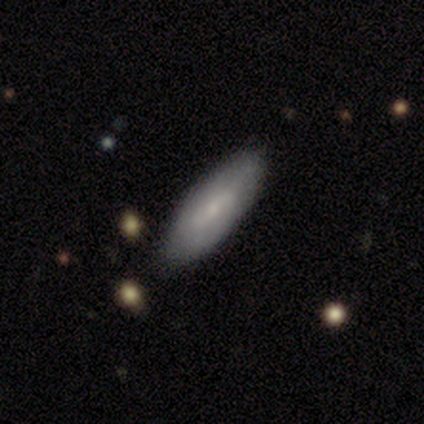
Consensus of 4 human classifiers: smooth-or-featured: smooth: 100% | featured or disk: 0% | star or artifact: 0%
  how-rounded: in between: 75% | cigar-shaped: 25% | round: 0%
  merging: none: 75% | minor disturbance: 25% | major disturbance: 0% | merger: 0%